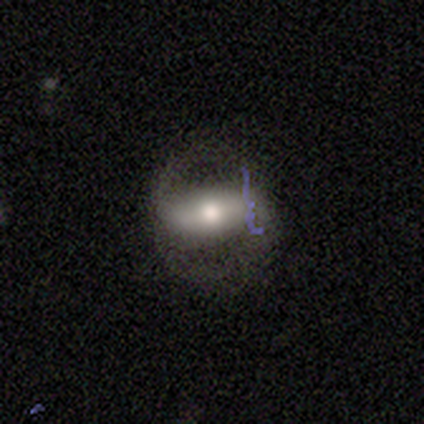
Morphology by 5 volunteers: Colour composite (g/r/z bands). It shows a featured or disk galaxy (60%) with no bar (100%), no spiral arms (67%) and a large central bulge (33%, tied with moderate and small). Merging: none (100%).